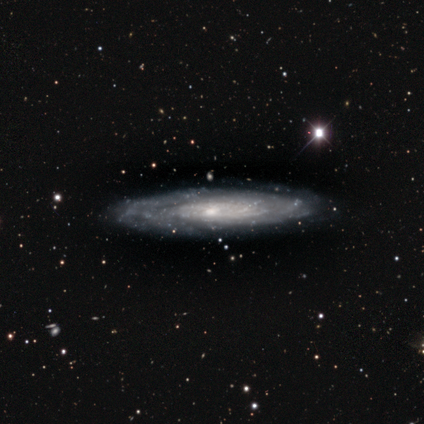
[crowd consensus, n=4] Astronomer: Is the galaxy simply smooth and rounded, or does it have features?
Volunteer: featured or disk — 100%.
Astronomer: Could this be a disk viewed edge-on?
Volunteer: yes — 50%, tied with no at 50%.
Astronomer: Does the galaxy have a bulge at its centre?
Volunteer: none — 100%.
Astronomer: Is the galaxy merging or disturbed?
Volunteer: none — 100%.